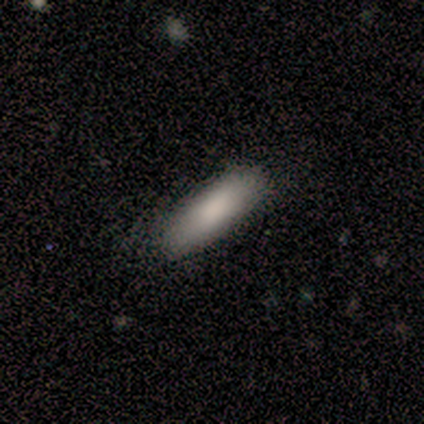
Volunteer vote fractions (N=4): Smooth or featured? smooth (75%)
How rounded? in between (67%)
Merging? none (100%)